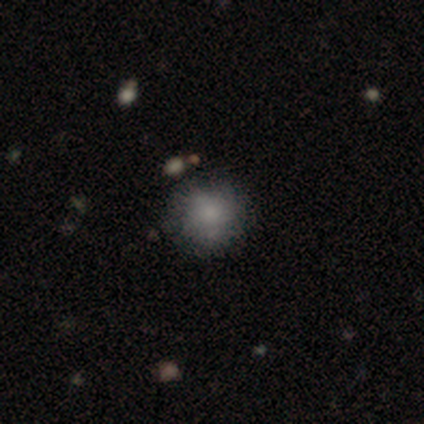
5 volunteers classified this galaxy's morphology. This appears to be a smooth galaxy with no disk features (40%, tied with featured or disk) that is round (100%). Merging: none (50%).